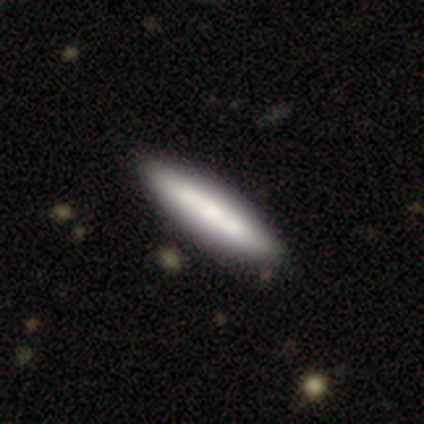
Smooth or featured? smooth (60%)
How rounded? in between (67%)
Merging? none (80%)